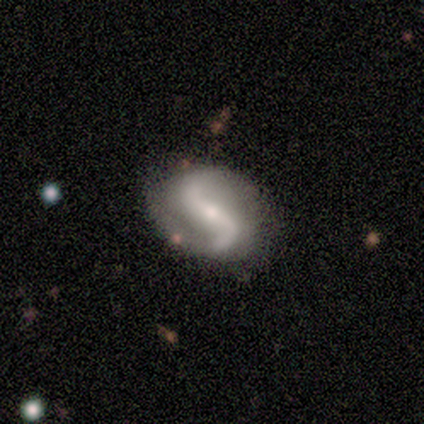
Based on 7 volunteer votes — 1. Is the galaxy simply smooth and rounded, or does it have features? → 100% featured or disk, 0% smooth, 0% star or artifact.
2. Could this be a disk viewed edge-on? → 100% no, 0% yes.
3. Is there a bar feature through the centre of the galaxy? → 71% strong, 14% weak, 14% no.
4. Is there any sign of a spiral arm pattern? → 86% yes, 14% no.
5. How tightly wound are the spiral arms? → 50% loose, 33% medium, 17% tight.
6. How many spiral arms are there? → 83% 2, 17% 1, 0% 3, 0% 4, 0% more than 4, 0% can't tell.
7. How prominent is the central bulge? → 43% moderate, 29% small, 14% large, 14% none, 0% dominant.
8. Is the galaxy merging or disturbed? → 71% none, 29% minor disturbance, 0% major disturbance, 0% merger.